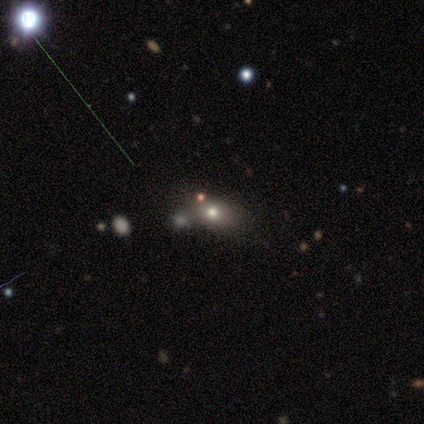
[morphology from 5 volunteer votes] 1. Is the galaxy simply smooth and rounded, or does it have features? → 60% smooth, 40% star or artifact, 0% featured or disk.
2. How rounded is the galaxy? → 67% round, 33% cigar-shaped, 0% in between.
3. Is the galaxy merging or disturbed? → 67% none, 33% merger, 0% minor disturbance, 0% major disturbance.